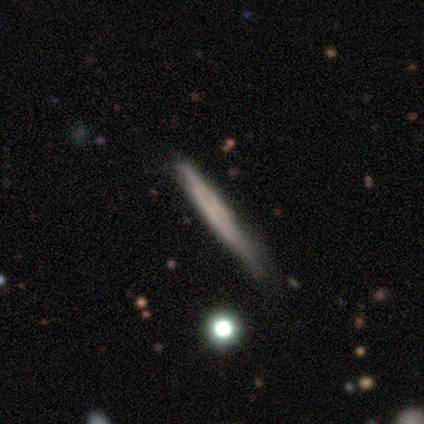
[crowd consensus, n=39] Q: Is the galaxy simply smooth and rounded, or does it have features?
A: featured or disk — 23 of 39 (59%).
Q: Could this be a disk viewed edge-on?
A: yes — 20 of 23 (87%).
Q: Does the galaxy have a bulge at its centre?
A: none — 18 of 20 (90%).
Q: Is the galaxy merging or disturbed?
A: none — 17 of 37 (46%).